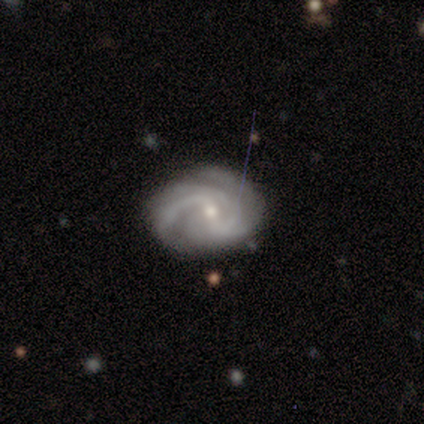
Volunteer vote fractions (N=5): smooth-or-featured: featured or disk: 100% | smooth: 0% | star or artifact: 0%
  disk-edge-on: no: 100% | yes: 0%
    bar: strong: 40% (tied) | weak: 40% (tied) | no: 20%
    has-spiral-arms: yes: 80% | no: 20%
      spiral-winding: tight: 75% | medium: 25% | loose: 0%
      spiral-arm-count: 2: 50% | 3: 25% | can't tell: 25% | 1: 0% | 4: 0% | more than 4: 0%
    bulge-size: small: 60% | moderate: 40% | dominant: 0% | large: 0% | none: 0%
  merging: none: 60% | minor disturbance: 20% | merger: 20% | major disturbance: 0%